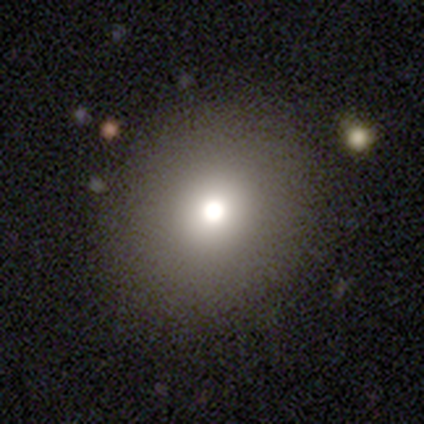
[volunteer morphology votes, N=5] A smooth galaxy with no disk features (60%) that is round (100%). Merging: none (100%).